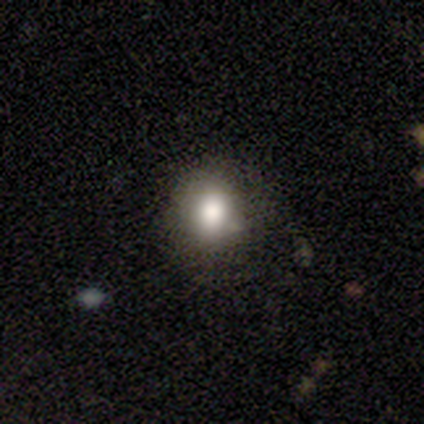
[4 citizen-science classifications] smooth-or-featured: smooth: 75% | star or artifact: 25% | featured or disk: 0%
  how-rounded: round: 100% | in between: 0% | cigar-shaped: 0%
  merging: none: 67% | minor disturbance: 33% | major disturbance: 0% | merger: 0%